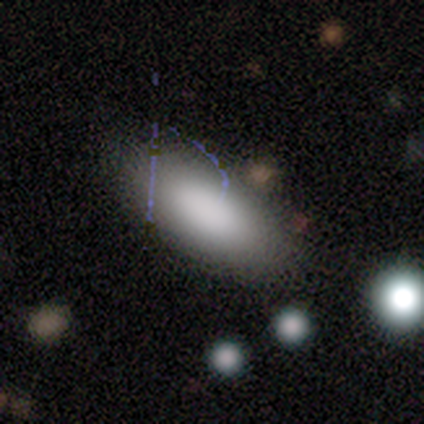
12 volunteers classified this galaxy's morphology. Smooth or featured: smooth — 83% (featured or disk — 8%)
How rounded: in between — 100%
Merging: none — 82% (minor disturbance — 9%)